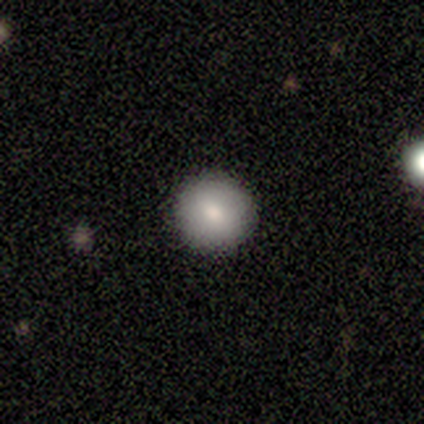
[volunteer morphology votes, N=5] A smooth galaxy with no disk features (80%) that is round (100%).

Vote fractions:
- Smooth or featured? smooth: 80% / star or artifact: 20% / featured or disk: 0%
- How rounded? round: 100% / in between: 0% / cigar-shaped: 0%
- Merging? none: 100% / minor disturbance: 0% / major disturbance: 0% / merger: 0%